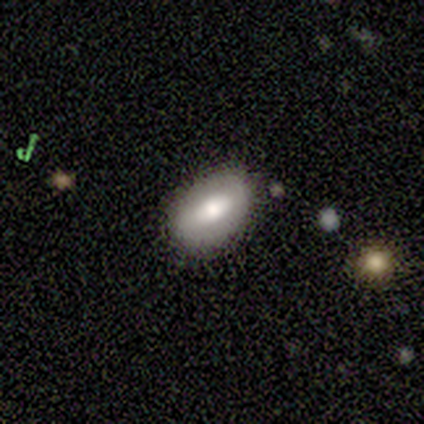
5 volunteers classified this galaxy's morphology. Smooth or featured? 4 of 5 (80%) said smooth. How rounded? 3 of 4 (75%) said in between. Merging? 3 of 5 (60%) said minor disturbance.